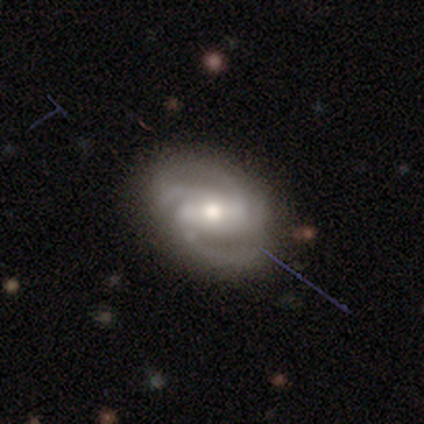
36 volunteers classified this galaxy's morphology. smooth_or_featured: featured or disk (p=0.97) [alt: star or artifact p=0.03]
disk_edge_on: no (p=0.94) [alt: yes p=0.06]
bar: strong (p=0.33) [tied with: weak p=0.33, no p=0.33]
has_spiral_arms: yes (p=0.97) [alt: no p=0.03]
spiral_winding: medium (p=0.56) [alt: tight p=0.34]
spiral_arm_count: 2 (p=0.41) [alt: 3 p=0.25]
bulge_size: moderate (p=0.55) [alt: small p=0.30]
merging: none (p=0.77) [alt: minor disturbance p=0.14]